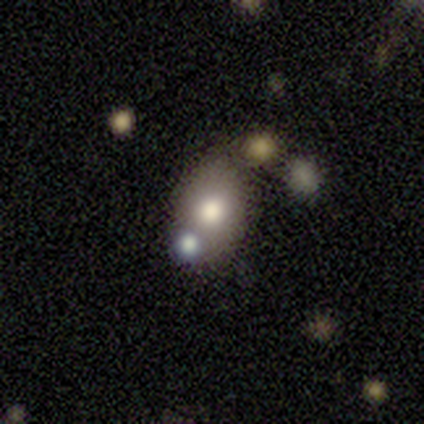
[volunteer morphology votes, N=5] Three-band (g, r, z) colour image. It shows a featured or disk galaxy (60%) with no bar (67%), no spiral arms (67%) and a moderate central bulge (67%). Merging: none (60%).